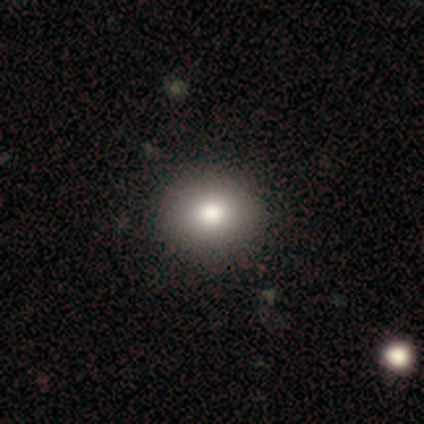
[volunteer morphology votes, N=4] smooth_or_featured: smooth (p=0.50) [alt: featured or disk p=0.25]
how_rounded: round (p=1.00)
merging: none (p=0.67) [alt: minor disturbance p=0.33]